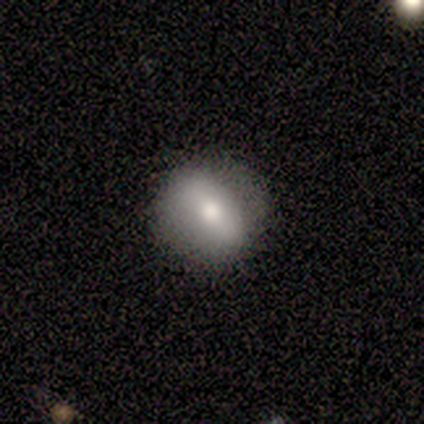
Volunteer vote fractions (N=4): Volunteers were most divided on "merging": none: 75%, minor disturbance: 25%, major disturbance: 0%, merger: 0%. More confident: smooth or featured — smooth (100%); how rounded — round (100%).